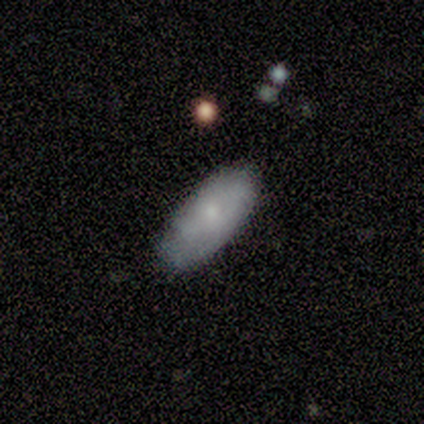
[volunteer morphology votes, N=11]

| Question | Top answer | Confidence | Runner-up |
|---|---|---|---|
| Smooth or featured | smooth | 82% | featured or disk (18%) |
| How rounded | in between | 100% | — |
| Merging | none | 82% | minor disturbance (18%) |